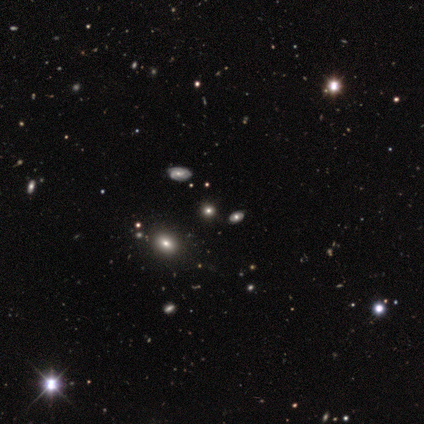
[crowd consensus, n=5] Smooth or featured?
  - smooth: 60% *
  - featured or disk: 20%
  - star or artifact: 20%
How rounded?
  - round: 33% * (tied)
  - in between: 33% * (tied)
  - cigar-shaped: 33% * (tied)
Merging?
  - none: 75% *
  - merger: 25%
  - minor disturbance: 0%
  - major disturbance: 0%